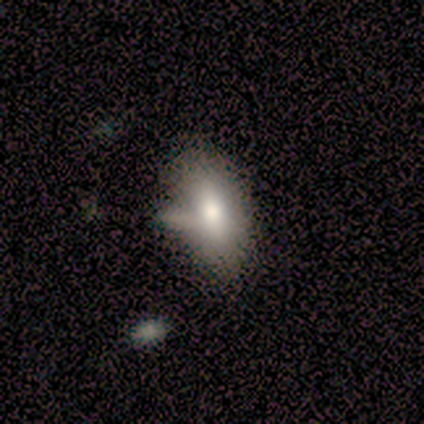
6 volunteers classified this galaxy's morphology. Smooth or featured? smooth (83%)
How rounded? in between (100%)
Merging? none (83%)